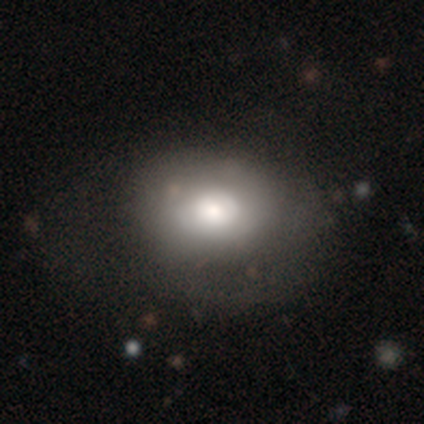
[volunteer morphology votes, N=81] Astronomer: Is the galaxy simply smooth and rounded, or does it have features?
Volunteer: smooth — 60%.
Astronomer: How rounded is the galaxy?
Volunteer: in between — 65%.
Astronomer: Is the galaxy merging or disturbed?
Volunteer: none — 22% (runner-up: minor disturbance, 16%).